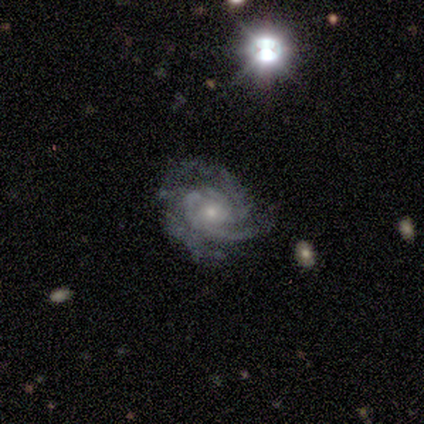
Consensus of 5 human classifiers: A featured or disk galaxy (100%) with no bar (60%), 3 (40%, tied with can't tell) tight (80%) spiral arms (100%) and a small central bulge (60%).

Vote fractions:
- Smooth or featured? featured or disk: 100% / smooth: 0% / star or artifact: 0%
- Edge-on disk? no: 100% / yes: 0%
- Bar? no: 60% / weak: 40% / strong: 0%
- Spiral arms? yes: 100% / no: 0%
- Spiral winding? tight: 80% / medium: 20% / loose: 0%
- Spiral arm count? 3: 40% (tied) / can't tell: 40% (tied) / 2: 20% / 1: 0% / 4: 0% / more than 4: 0%
- Bulge size? small: 60% / moderate: 40% / dominant: 0% / large: 0% / none: 0%
- Merging? none: 100% / minor disturbance: 0% / major disturbance: 0% / merger: 0%